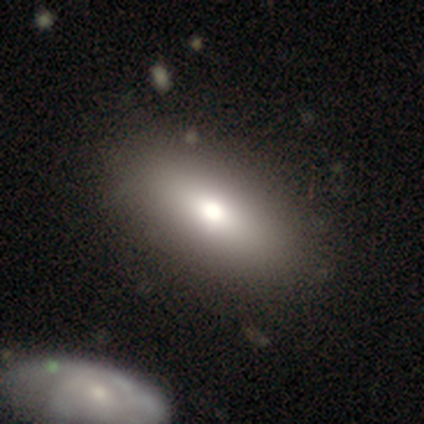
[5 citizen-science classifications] This appears to be a smooth galaxy with no disk features (80%) that is in between round and cigar-shaped (100%). Merging: none (75%).